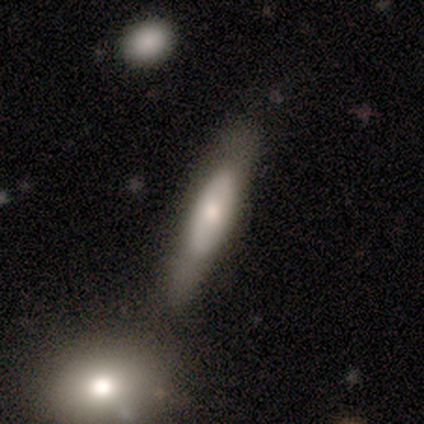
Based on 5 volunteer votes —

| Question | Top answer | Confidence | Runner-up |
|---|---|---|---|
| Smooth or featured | featured or disk | 80% | smooth (20%) |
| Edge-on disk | yes | 50% | tied: no (50%) |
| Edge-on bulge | none | 50% | tied: rounded (50%) |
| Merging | none | 60% | minor disturbance (20%) |